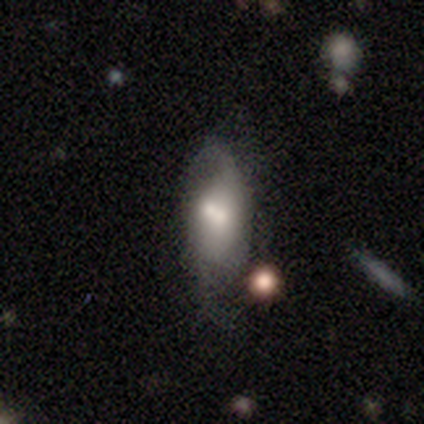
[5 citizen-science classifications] Smooth or featured?
  - featured or disk: 80% *
  - star or artifact: 20%
  - smooth: 0%
Edge-on disk?
  - yes: 50% * (tied)
  - no: 50% * (tied)
Edge-on bulge?
  - rounded: 100% *
  - boxy: 0%
  - none: 0%
Merging?
  - minor disturbance: 50% *
  - major disturbance: 25%
  - merger: 25%
  - none: 0%